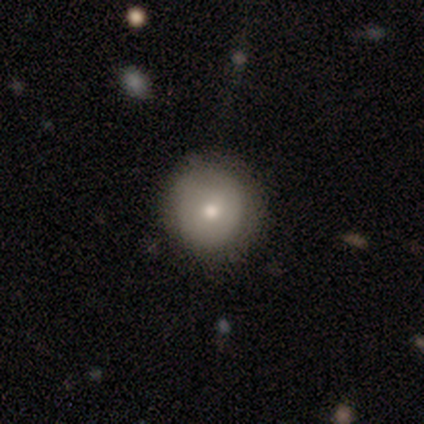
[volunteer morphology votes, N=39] smooth_or_featured: smooth (p=0.69) [alt: featured or disk p=0.15]
how_rounded: round (p=0.96) [alt: in between p=0.04]
merging: none (p=0.88) [alt: minor disturbance p=0.12]